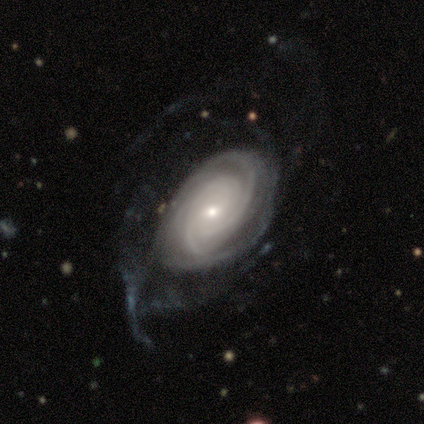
A featured or disk galaxy (100%) with a weak bar (60%), tight (60%) spiral arms (100%) and a small central bulge (60%).

Vote fractions:
- Smooth or featured? featured or disk: 100% / smooth: 0% / star or artifact: 0%
- Edge-on disk? no: 100% / yes: 0%
- Bar? weak: 60% / strong: 20% / no: 20%
- Spiral arms? yes: 100% / no: 0%
- Spiral winding? tight: 60% / medium: 40% / loose: 0%
- Spiral arm count? can't tell: 60% / 4: 40% / 1: 0% / 2: 0% / 3: 0% / more than 4: 0%
- Bulge size? small: 60% / moderate: 40% / dominant: 0% / large: 0% / none: 0%
- Merging? major disturbance: 60% / none: 20% / minor disturbance: 20% / merger: 0%